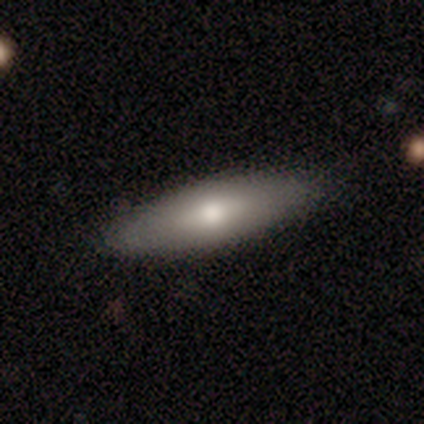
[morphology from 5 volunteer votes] Volunteers were most divided on "how rounded" (2-way tie): in between: 50%, cigar-shaped: 50%, round: 0%. More confident: smooth or featured — smooth (80%); merging — none (75%).